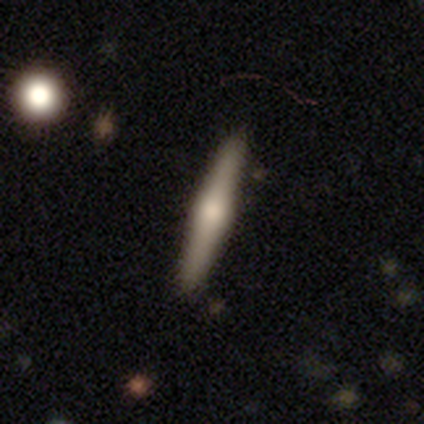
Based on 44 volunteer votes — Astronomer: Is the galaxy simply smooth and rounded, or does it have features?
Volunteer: featured or disk — 59%.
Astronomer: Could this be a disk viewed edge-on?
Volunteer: yes — 100%.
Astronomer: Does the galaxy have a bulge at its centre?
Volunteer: rounded — 92%.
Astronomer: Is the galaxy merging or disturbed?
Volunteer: none — 94%.